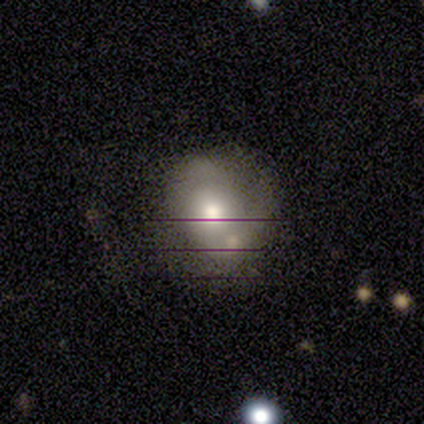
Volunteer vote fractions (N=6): A featured or disk galaxy (50%) with no bar (100%), tight (50%, tied with medium) spiral arms (100%) and a moderate central bulge (100%).

Vote fractions:
- Smooth or featured? featured or disk: 50% / smooth: 33% / star or artifact: 17%
- Edge-on disk? no: 67% / yes: 33%
- Bar? no: 100% / strong: 0% / weak: 0%
- Spiral arms? yes: 100% / no: 0%
- Spiral winding? tight: 50% (tied) / medium: 50% (tied) / loose: 0%
- Spiral arm count? can't tell: 100% / 1: 0% / 2: 0% / 3: 0% / 4: 0% / more than 4: 0%
- Bulge size? moderate: 100% / dominant: 0% / large: 0% / small: 0% / none: 0%
- Merging? none: 40% (tied) / minor disturbance: 40% (tied) / merger: 20% / major disturbance: 0%